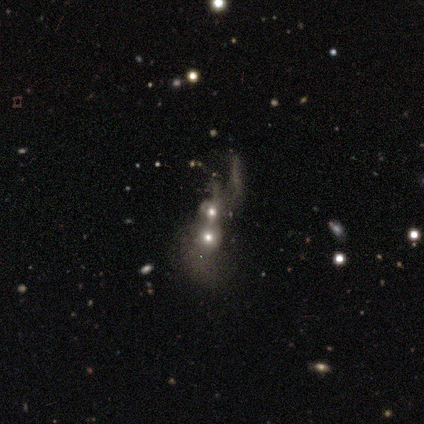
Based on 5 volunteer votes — smooth 60%, featured or disk 20%, star or artifact 20%. Down the decision tree: how rounded — round (67%); merging — merger (100%).